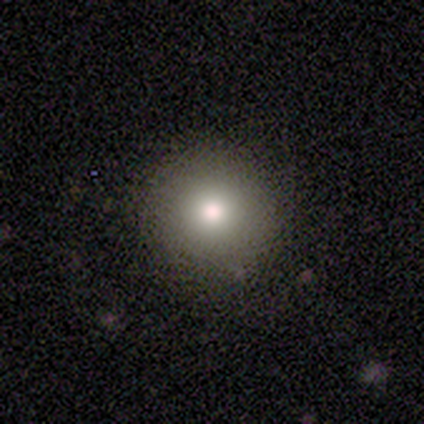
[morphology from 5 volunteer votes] A smooth galaxy with no disk features (100%) that is round (100%).

Vote fractions:
- Smooth or featured? smooth: 100% / featured or disk: 0% / star or artifact: 0%
- How rounded? round: 100% / in between: 0% / cigar-shaped: 0%
- Merging? none: 100% / minor disturbance: 0% / major disturbance: 0% / merger: 0%